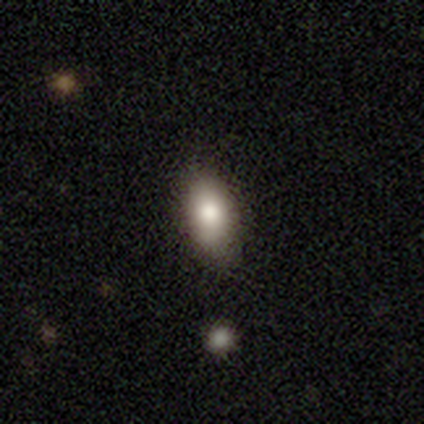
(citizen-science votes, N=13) A smooth galaxy with no disk features (69%) that is in between round and cigar-shaped (89%).

Vote fractions:
- Smooth or featured? smooth: 69% / featured or disk: 23% / star or artifact: 8%
- How rounded? in between: 89% / cigar-shaped: 11% / round: 0%
- Merging? none: 75% / minor disturbance: 17% / major disturbance: 8% / merger: 0%